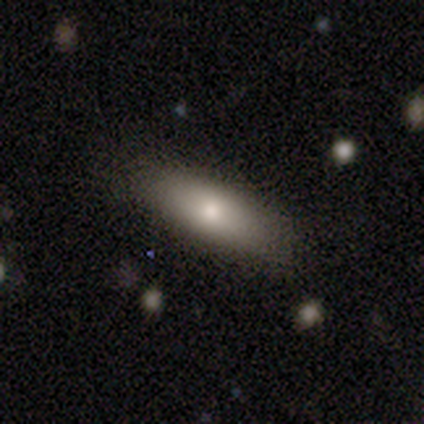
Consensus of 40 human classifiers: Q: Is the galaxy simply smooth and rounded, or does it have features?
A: smooth — 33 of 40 (82%).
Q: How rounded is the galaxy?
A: in between — 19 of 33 (58%).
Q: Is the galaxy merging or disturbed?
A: none — 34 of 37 (92%).